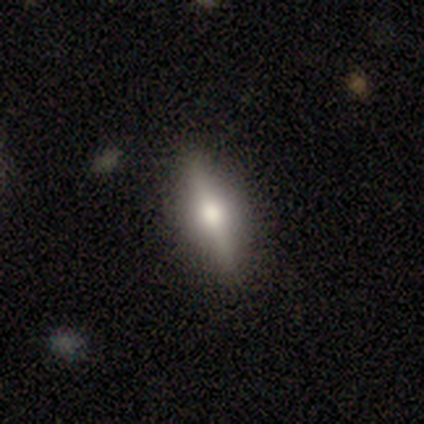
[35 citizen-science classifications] Smooth or featured? 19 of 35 (54%) said featured or disk. Edge-on disk? 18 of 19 (95%) said yes. Edge-on bulge? 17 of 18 (94%) said rounded. Merging? 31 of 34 (91%) said none.